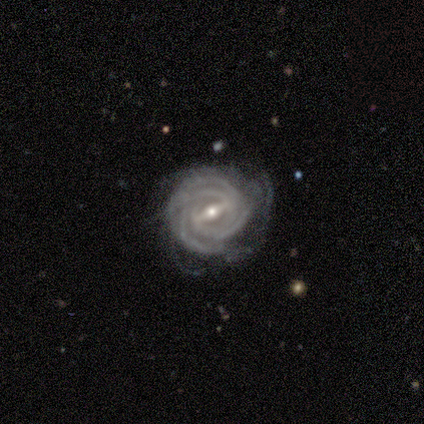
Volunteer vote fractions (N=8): A featured or disk galaxy (100%) with a weak bar (43%), 3 (29%, tied with 4) tight (71%) spiral arms (100%) and a small central bulge (71%). Merging: none (62%).